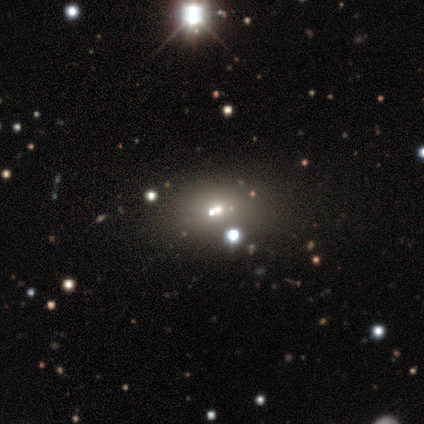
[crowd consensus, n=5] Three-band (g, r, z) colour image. It shows a featured or disk galaxy (60%) with no bar (100%), no spiral arms (100%) and a moderate central bulge (33%, tied with small and none). Merging: none (100%).